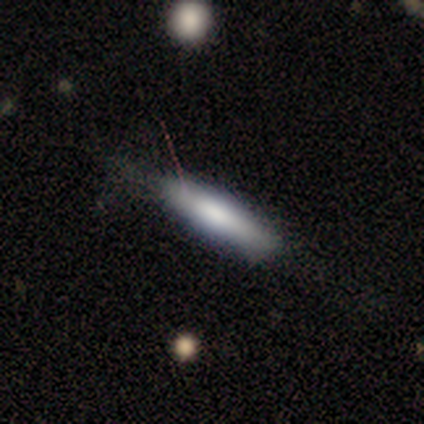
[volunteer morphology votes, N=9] This appears to be a smooth galaxy with no disk features (56%) that is cigar-shaped (100%). Merging: none (56%).